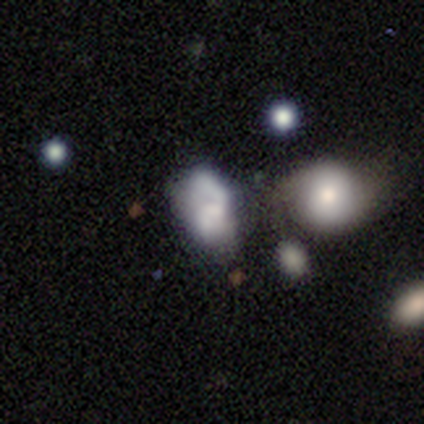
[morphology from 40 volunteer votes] This appears to be a smooth galaxy with no disk features (48%) that is in between round and cigar-shaped (89%). Merging: none (34%).